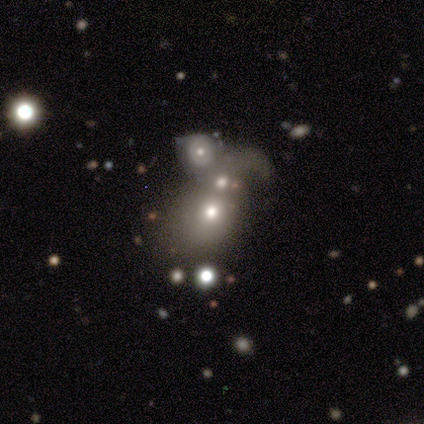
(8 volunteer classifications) Q: Smooth or featured?
A: featured or disk (50%); runner-up: star or artifact (38%)
Q: Edge-on disk?
A: no (100%)
Q: Bar?
A: no (100%)
Q: Spiral arms?
A: no (75%); runner-up: yes (25%)
Q: Bulge size?
A: moderate (50%); tied with: small (50%)
Q: Merging?
A: merger (80%); runner-up: minor disturbance (20%)